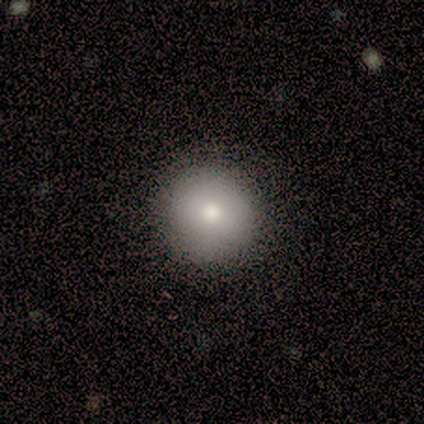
Volunteers were most divided on "smooth or featured": smooth: 82%, featured or disk: 12%, star or artifact: 5%. More confident: how rounded — round (100%); merging — none (79%).